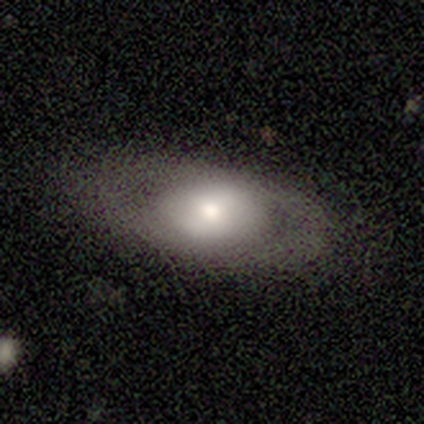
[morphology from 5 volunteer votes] A smooth galaxy with no disk features (60%) that is in between round and cigar-shaped (100%).

Vote fractions:
- Smooth or featured? smooth: 60% / featured or disk: 40% / star or artifact: 0%
- How rounded? in between: 100% / round: 0% / cigar-shaped: 0%
- Merging? minor disturbance: 60% / none: 40% / major disturbance: 0% / merger: 0%